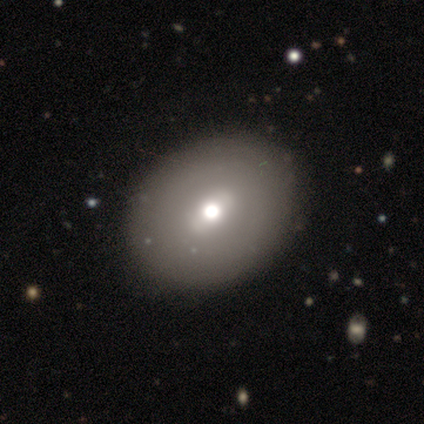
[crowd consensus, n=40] smooth 52%, featured or disk 48%, star or artifact 0%. Down the decision tree: how rounded — round (52%); merging — none (68%).